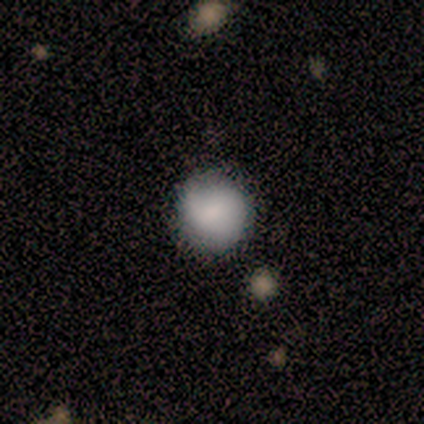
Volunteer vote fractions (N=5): Volunteers were most divided on "merging": none: 80%, major disturbance: 20%, minor disturbance: 0%, merger: 0%. More confident: smooth or featured — smooth (100%); how rounded — round (100%).